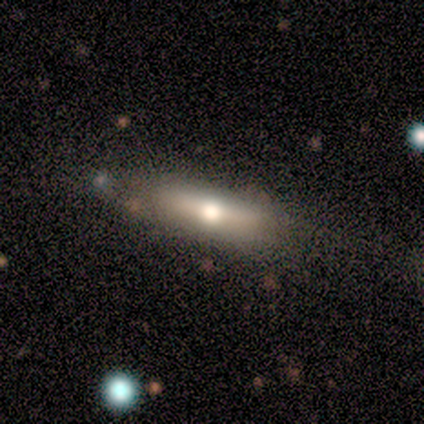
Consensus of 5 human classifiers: smooth-or-featured: smooth: 60% | featured or disk: 40% | star or artifact: 0%
  how-rounded: cigar-shaped: 67% | in between: 33% | round: 0%
  merging: none: 100% | minor disturbance: 0% | major disturbance: 0% | merger: 0%